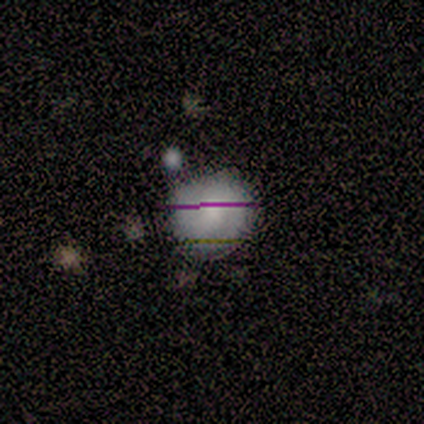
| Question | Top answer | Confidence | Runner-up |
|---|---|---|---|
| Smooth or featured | smooth | 70% | star or artifact (20%) |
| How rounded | round | 100% | — |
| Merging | none | 62% | minor disturbance (25%) |